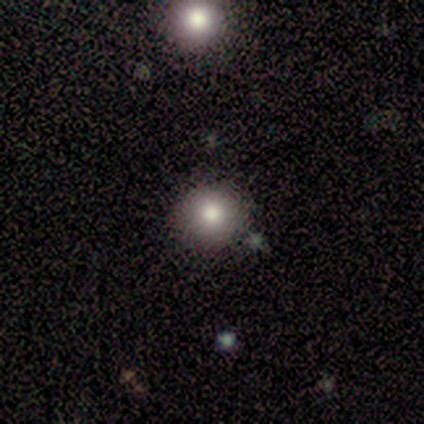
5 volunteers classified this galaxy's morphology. This appears to be a smooth galaxy with no disk features (80%) that is round (75%). Merging: none (80%).